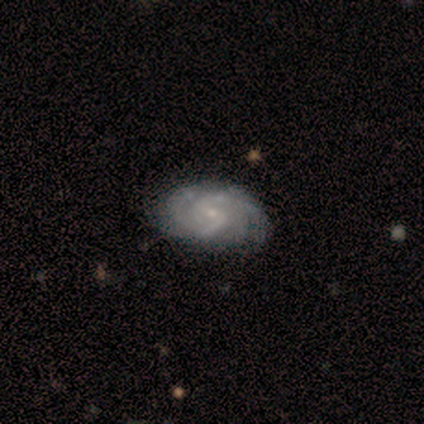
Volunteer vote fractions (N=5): A featured or disk galaxy (100%) with a weak bar (100%), 2 (100%) tight (40%, tied with medium) spiral arms (100%) and a small central bulge (100%).

Vote fractions:
- Smooth or featured? featured or disk: 100% / smooth: 0% / star or artifact: 0%
- Edge-on disk? no: 100% / yes: 0%
- Bar? weak: 100% / strong: 0% / no: 0%
- Spiral arms? yes: 100% / no: 0%
- Spiral winding? tight: 40% (tied) / medium: 40% (tied) / loose: 20%
- Spiral arm count? 2: 100% / 1: 0% / 3: 0% / 4: 0% / more than 4: 0% / can't tell: 0%
- Bulge size? small: 100% / dominant: 0% / large: 0% / moderate: 0% / none: 0%
- Merging? none: 60% / minor disturbance: 40% / major disturbance: 0% / merger: 0%